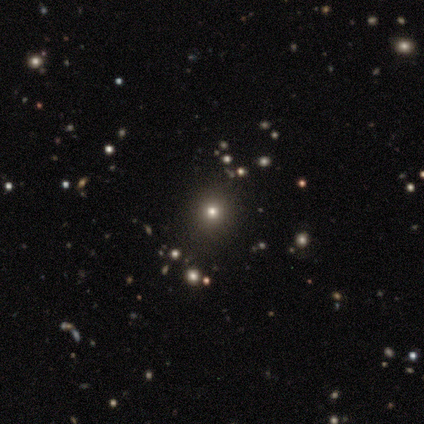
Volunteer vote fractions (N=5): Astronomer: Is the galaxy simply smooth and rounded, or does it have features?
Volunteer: smooth — 60% (runner-up: star or artifact, 40%).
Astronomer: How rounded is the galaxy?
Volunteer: round — 100%.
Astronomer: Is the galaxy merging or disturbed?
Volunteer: none — 100%.